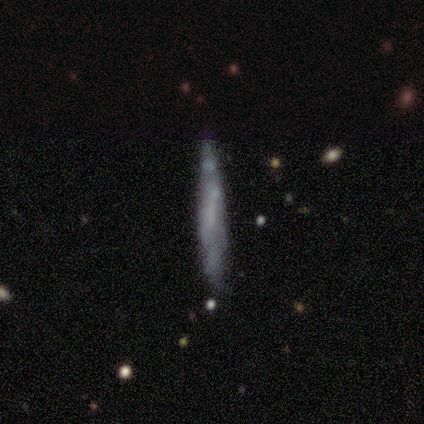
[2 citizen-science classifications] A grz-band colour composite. It shows a smooth galaxy with no disk features (50%, tied with featured or disk) that is cigar-shaped (100%). Merging: none (50%, tied with merger).